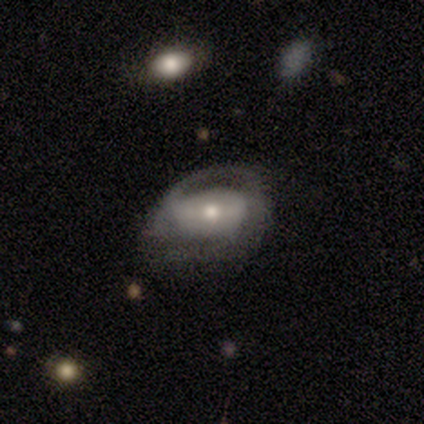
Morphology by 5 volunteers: Smooth or featured: featured or disk — 80% (smooth — 20%)
Edge-on disk: no — 100%
Bar: no — 75% (weak — 25%)
Spiral arms: no — 75% (yes — 25%)
Bulge size: moderate — 75% (small — 25%)
Merging: minor disturbance — 60% (none — 20%)